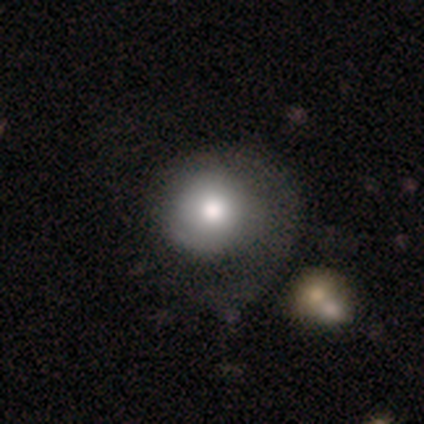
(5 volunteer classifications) smooth-or-featured: featured or disk: 40% (tied) | star or artifact: 40% (tied) | smooth: 20%
  disk-edge-on: no: 100% | yes: 0%
    bar: no: 100% | strong: 0% | weak: 0%
    has-spiral-arms: no: 100% | yes: 0%
    bulge-size: large: 50% (tied) | moderate: 50% (tied) | dominant: 0% | small: 0% | none: 0%
  merging: minor disturbance: 33% (tied) | major disturbance: 33% (tied) | merger: 33% (tied) | none: 0%